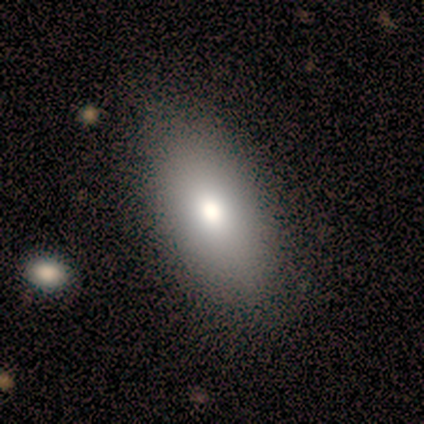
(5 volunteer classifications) smooth 100%, featured or disk 0%, star or artifact 0%. Down the decision tree: how rounded — in between (80%); merging — none (80%).